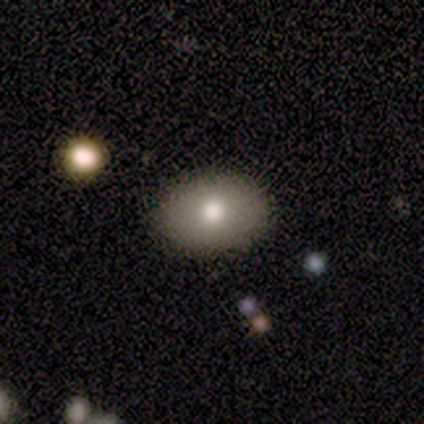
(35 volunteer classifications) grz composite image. It shows a smooth galaxy with no disk features (71%) that is in between round and cigar-shaped (80%). Merging: none (97%).